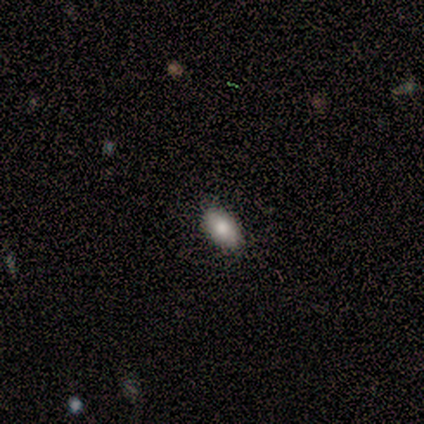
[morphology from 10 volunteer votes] Smooth or featured: smooth — 90% (star or artifact — 10%)
How rounded: in between — 100%
Merging: none — 78% (minor disturbance — 22%)